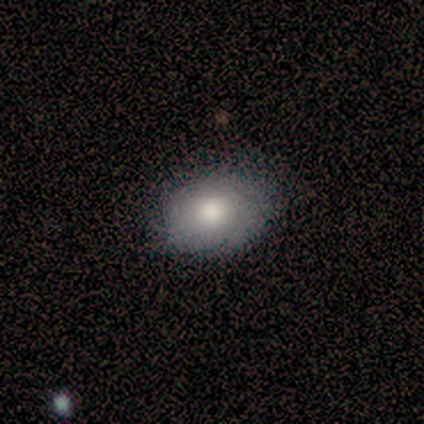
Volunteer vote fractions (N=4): smooth-or-featured: smooth: 75% | featured or disk: 25% | star or artifact: 0%
  how-rounded: round: 33% (tied) | in between: 33% (tied) | cigar-shaped: 33% (tied)
  merging: none: 75% | minor disturbance: 25% | major disturbance: 0% | merger: 0%